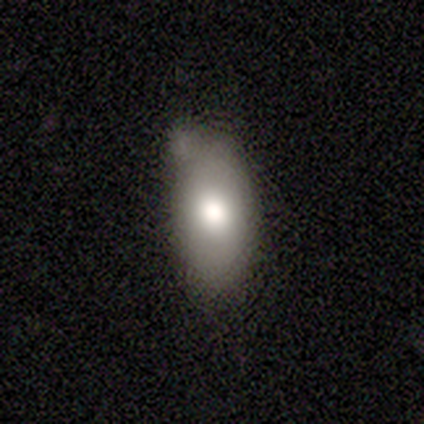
Morphology: type=smooth (71%); roundness=in between (100%); merging=none (83%).